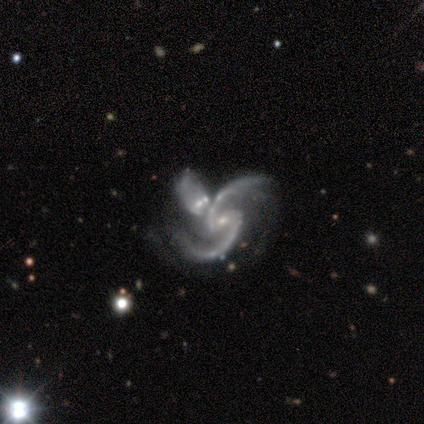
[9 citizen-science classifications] Volunteers were most divided on "bulge size": small: 67%, moderate: 22%, none: 11%, dominant: 0%, large: 0%. More confident: smooth or featured — featured or disk (100%); edge-on disk — no (100%); spiral arms — yes (89%); spiral arm count — 2 (88%); bar — weak (78%); merging — merger (78%); spiral winding — loose (75%).